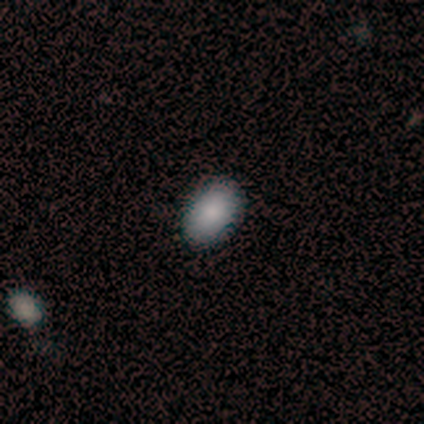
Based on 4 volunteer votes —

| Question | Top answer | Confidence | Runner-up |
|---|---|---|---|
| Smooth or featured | smooth | 100% | — |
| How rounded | in between | 100% | — |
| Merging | none | 75% | minor disturbance (25%) |